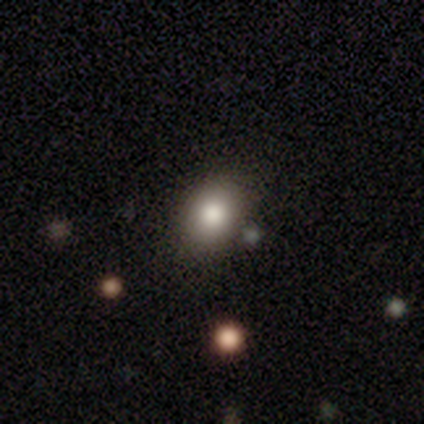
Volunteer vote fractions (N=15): This is clearly a smooth galaxy (80%). How rounded: possibly in between (58%). Merging: clearly none (100%).